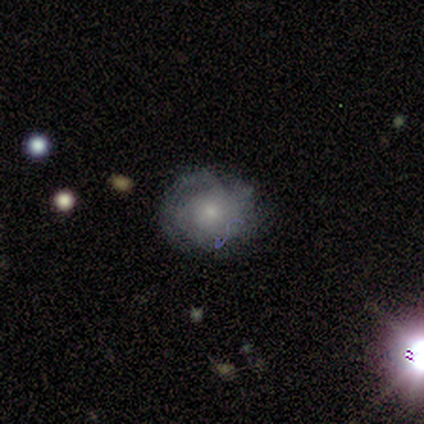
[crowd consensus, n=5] Overall: smooth (60%; featured or disk 20%). How rounded: in between (67%; round 33%). Merging: none (75%).